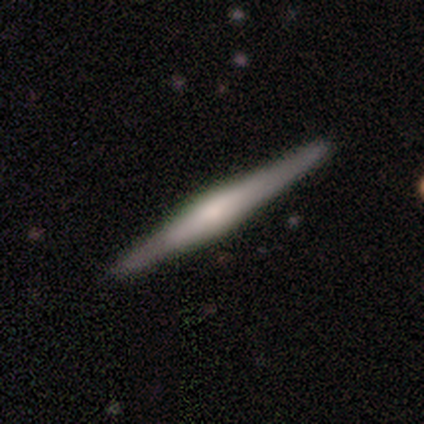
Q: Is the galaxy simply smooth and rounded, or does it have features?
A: featured or disk — 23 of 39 (59%).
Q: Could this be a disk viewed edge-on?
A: yes — 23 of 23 (100%).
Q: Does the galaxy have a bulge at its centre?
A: rounded — 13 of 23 (57%).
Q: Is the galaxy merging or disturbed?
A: none — 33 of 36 (92%).